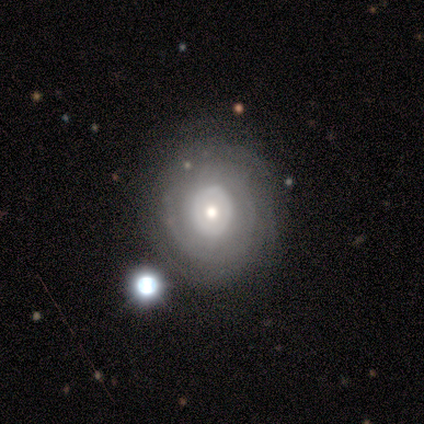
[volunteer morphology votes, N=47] This appears to be a featured or disk galaxy (72%) with no bar (94%), no spiral arms (59%) and a moderate central bulge (62%). Merging: none (75%).